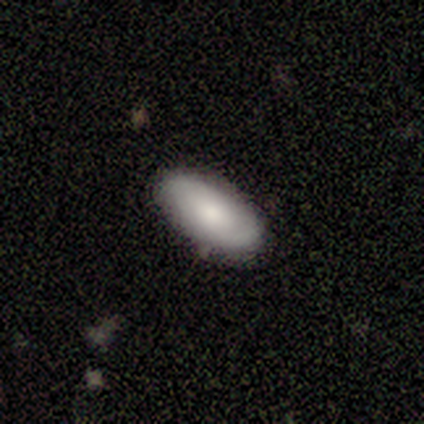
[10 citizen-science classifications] Smooth or featured?
  - smooth: 90% *
  - featured or disk: 10%
  - star or artifact: 0%
How rounded?
  - in between: 100% *
  - round: 0%
  - cigar-shaped: 0%
Merging?
  - none: 80% *
  - minor disturbance: 10%
  - major disturbance: 10%
  - merger: 0%